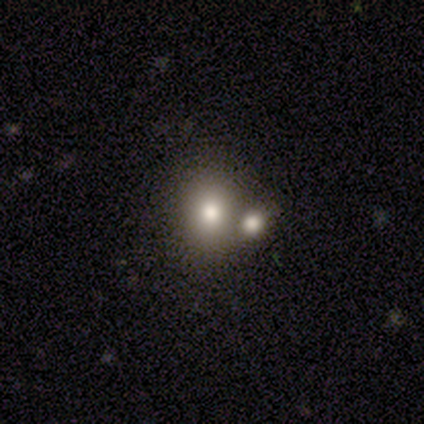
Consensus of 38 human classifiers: smooth 63%, star or artifact 32%, featured or disk 5%. Down the decision tree: how rounded — round (58%); merging — none (54%).